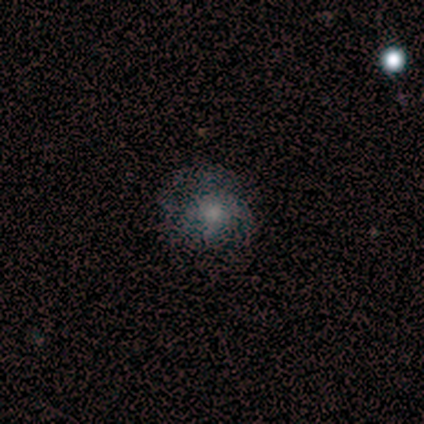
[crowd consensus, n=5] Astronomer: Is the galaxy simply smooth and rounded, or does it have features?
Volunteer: smooth — 60%.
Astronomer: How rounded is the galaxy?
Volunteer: round — 100%.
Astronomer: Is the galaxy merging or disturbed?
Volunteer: none — 100%.